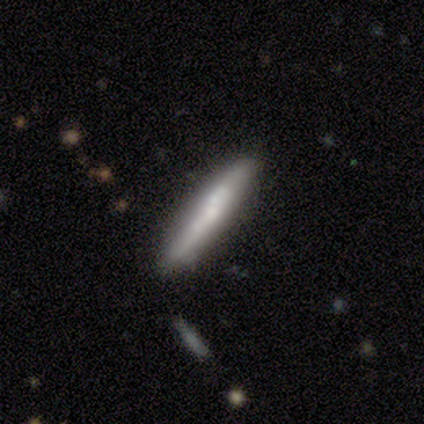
A featured or disk galaxy (57%) viewed edge-on (78%) with no central bulge (56%).

Vote fractions:
- Smooth or featured? featured or disk: 57% / smooth: 40% / star or artifact: 2%
- Edge-on disk? yes: 78% / no: 22%
- Edge-on bulge? none: 56% / rounded: 39% / boxy: 6%
- Merging? none: 72% / minor disturbance: 23% / major disturbance: 3% / merger: 3%